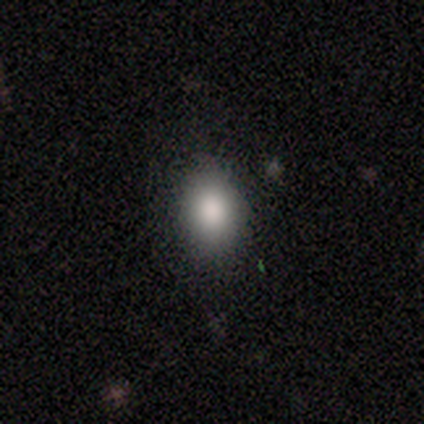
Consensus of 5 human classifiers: Morphology: type=smooth (100%); roundness=in between (80%); merging=none (60%).